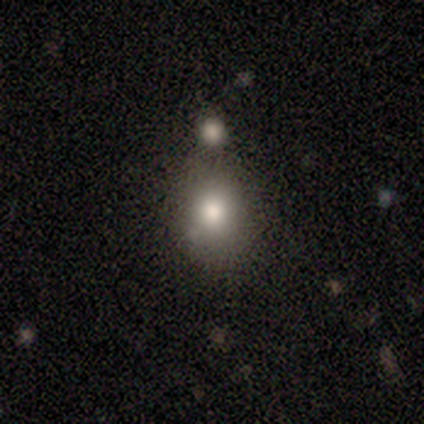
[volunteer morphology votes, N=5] This is marginally a smooth galaxy (40%, tied with featured or disk). How rounded: clearly round (100%). Merging: likely none (75%).